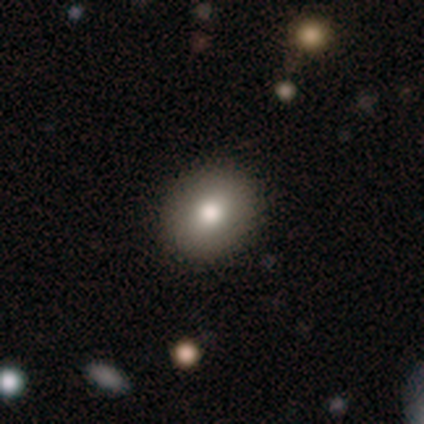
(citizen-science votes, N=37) Morphology: type=smooth (70%); roundness=round (73%); merging=none (91%).